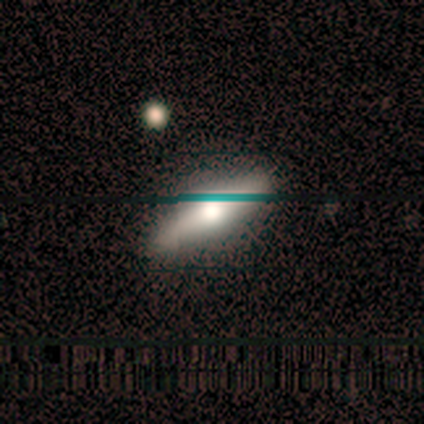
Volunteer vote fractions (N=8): A smooth galaxy with no disk features (62%) that is cigar-shaped (60%). Merging: none (100%).